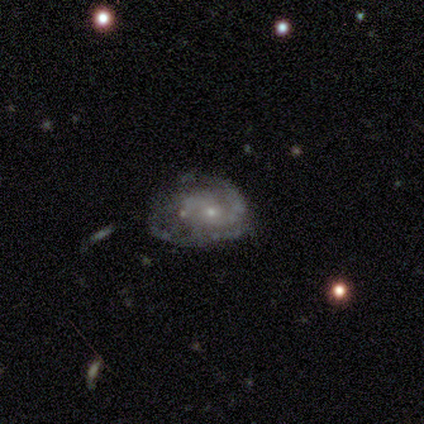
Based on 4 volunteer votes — Q: Smooth or featured?
A: featured or disk (100%)
Q: Edge-on disk?
A: no (100%)
Q: Bar?
A: no (75%); runner-up: weak (25%)
Q: Spiral arms?
A: yes (100%)
Q: Spiral winding?
A: medium (50%); runner-up: tight (25%)
Q: Spiral arm count?
A: 2 (50%); tied with: can't tell (50%)
Q: Bulge size?
A: moderate (75%); runner-up: small (25%)
Q: Merging?
A: none (25%); tied with: minor disturbance (25%); major disturbance (25%); merger (25%)